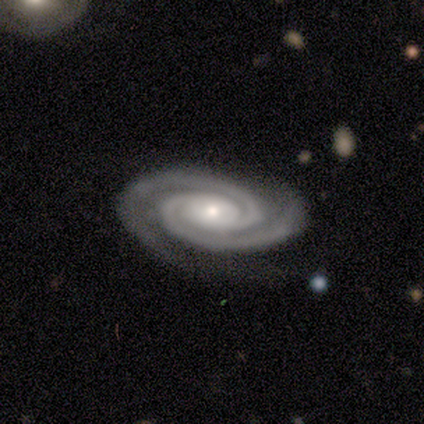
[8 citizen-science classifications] This appears to be a featured or disk galaxy (100%) with no bar (62%), 2 (75%) tight (75%) spiral arms (100%) and a small central bulge (62%). Merging: none (62%).